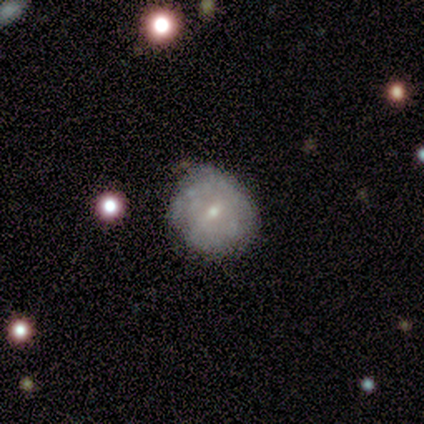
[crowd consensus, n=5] Morphology: type=smooth (80%); roundness=round (100%); merging=none (60%).